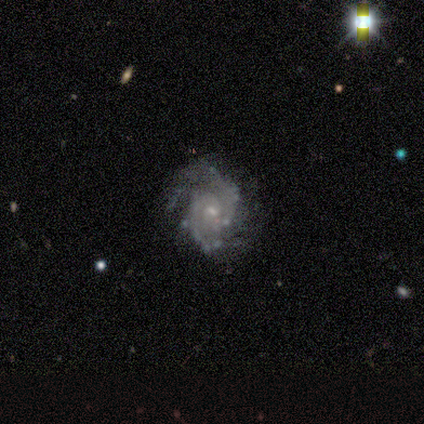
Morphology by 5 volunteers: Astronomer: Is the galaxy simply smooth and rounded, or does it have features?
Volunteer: featured or disk — 100%.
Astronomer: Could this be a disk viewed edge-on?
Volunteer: no — 100%.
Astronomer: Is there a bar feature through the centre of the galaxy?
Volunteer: weak — 80%.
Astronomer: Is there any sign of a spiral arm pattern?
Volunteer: yes — 100%.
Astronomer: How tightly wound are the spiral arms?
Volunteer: medium — 60% (runner-up: tight, 40%).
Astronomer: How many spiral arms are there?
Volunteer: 2 — 80%.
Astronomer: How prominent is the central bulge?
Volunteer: small — 80%.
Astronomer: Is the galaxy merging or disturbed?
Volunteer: none — 80%.